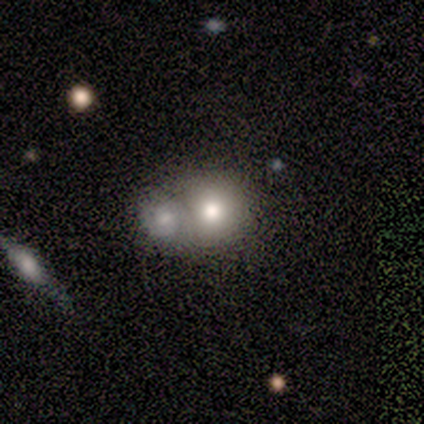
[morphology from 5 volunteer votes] This is likely a smooth galaxy (60%). How rounded: clearly round (100%). Merging: marginally none (33%, tied with minor disturbance and merger).